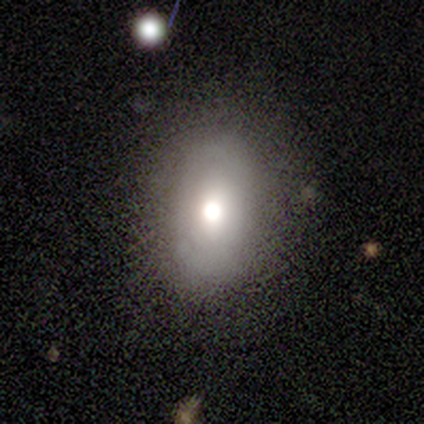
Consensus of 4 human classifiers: featured or disk 50%, smooth 25%, star or artifact 25%. Down the decision tree: edge-on disk — no (100%); bar — no (100%); spiral arms — yes (50%, tied with no); spiral arm count — can't tell (100%); spiral winding — loose (100%); bulge size — large (50%, tied with moderate); merging — minor disturbance (67%).